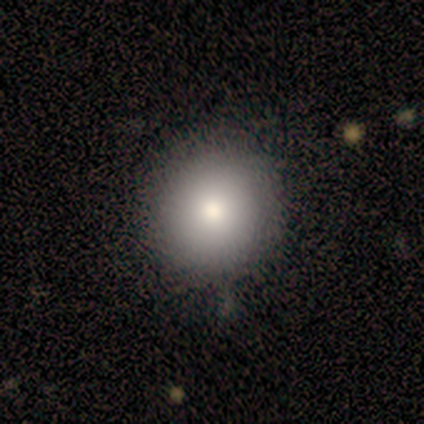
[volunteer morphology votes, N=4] type=smooth (100%); roundness=round (75%); merging=none (75%).